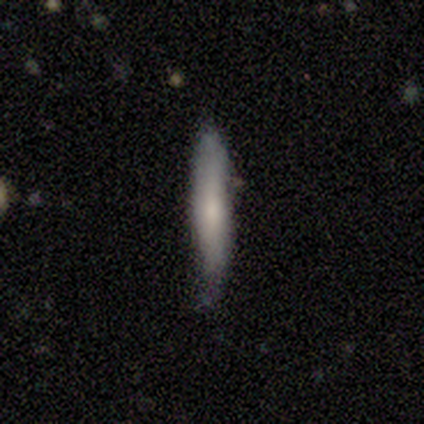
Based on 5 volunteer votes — Smooth or featured: smooth — 60% (featured or disk — 40%)
How rounded: cigar-shaped — 100%
Merging: none — 80% (minor disturbance — 20%)